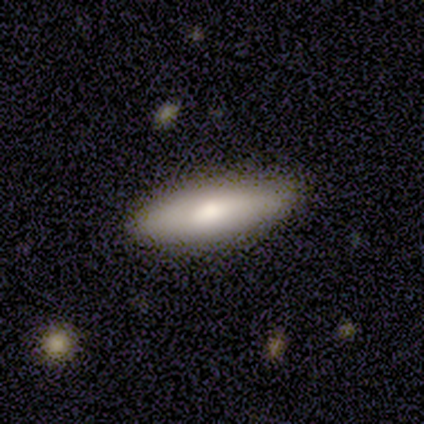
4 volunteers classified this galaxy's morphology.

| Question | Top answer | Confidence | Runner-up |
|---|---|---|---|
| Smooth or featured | smooth | 100% | — |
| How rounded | in between | 50% | tied: cigar-shaped (50%) |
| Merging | none | 75% | major disturbance (25%) |